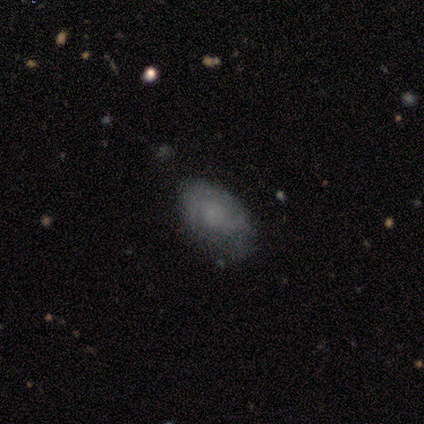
Smooth or featured?
  - smooth: 60% *
  - featured or disk: 40%
  - star or artifact: 0%
How rounded?
  - in between: 100% *
  - round: 0%
  - cigar-shaped: 0%
Merging?
  - none: 60% *
  - minor disturbance: 40%
  - major disturbance: 0%
  - merger: 0%